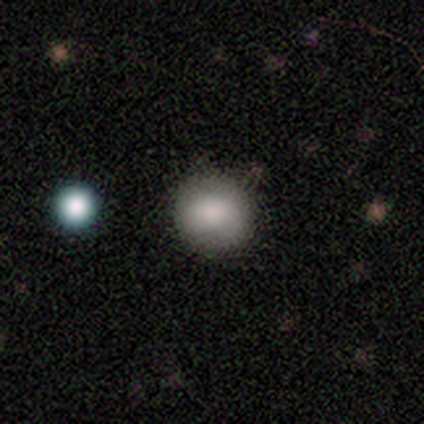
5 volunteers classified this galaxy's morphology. A smooth galaxy with no disk features (80%) that is round (75%). Merging: none (100%).